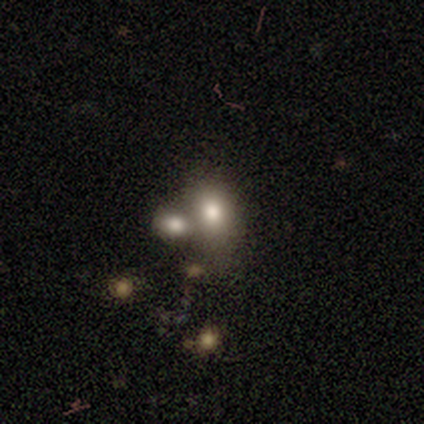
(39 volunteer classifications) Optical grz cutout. It shows a smooth galaxy with no disk features (59%) that is in between round and cigar-shaped (78%). Merging: none (48%).